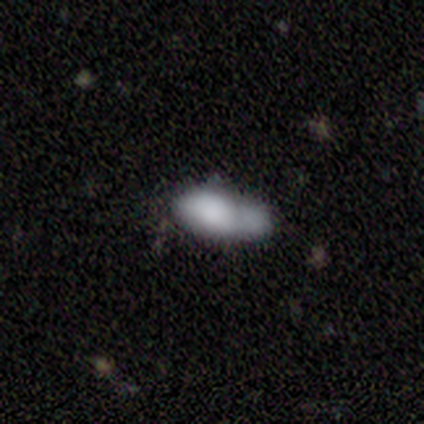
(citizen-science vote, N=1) A smooth galaxy with no disk features (100%) that is in between round and cigar-shaped (100%). Merging: merger (100%).